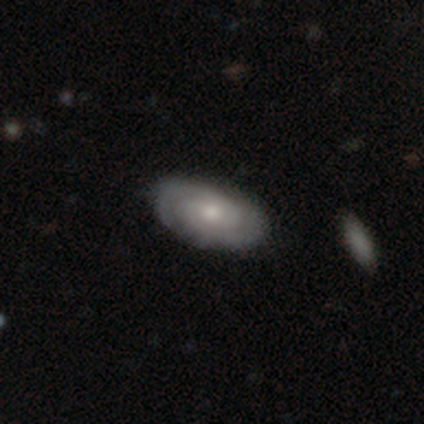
A featured or disk galaxy (68%) with no bar (85%), 2 (68%) tight (80%) spiral arms (96%) and a moderate central bulge (69%). Merging: none (86%).